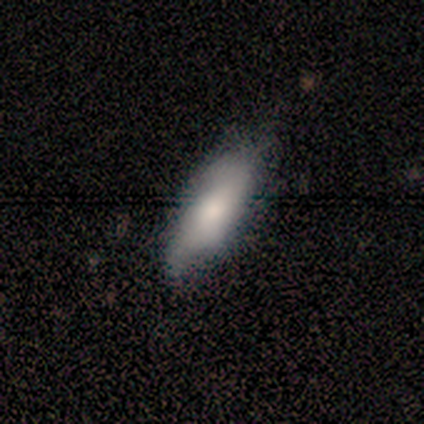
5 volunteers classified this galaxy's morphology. Smooth or featured? smooth (80%)
How rounded? in between (50%, tied with cigar-shaped)
Merging? none (80%)